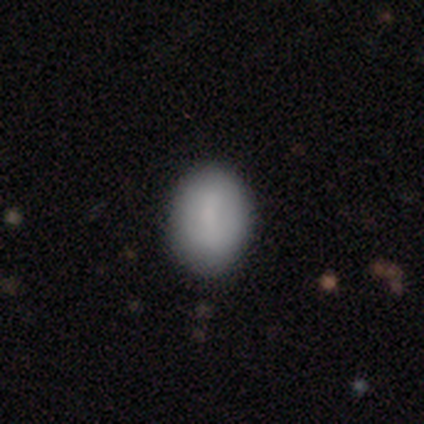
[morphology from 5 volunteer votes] smooth 100%, featured or disk 0%, star or artifact 0%. Down the decision tree: how rounded — in between (80%); merging — none (100%).